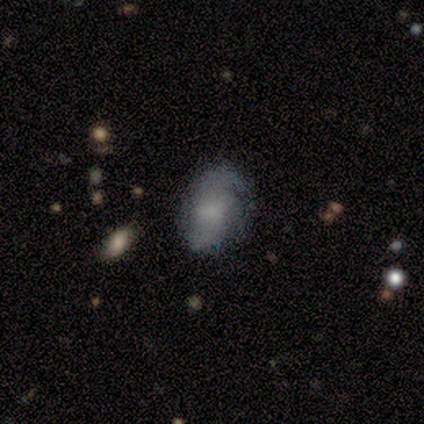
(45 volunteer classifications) Smooth or featured? 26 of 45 (58%) said featured or disk. Edge-on disk? 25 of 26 (96%) said no. Bar? 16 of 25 (64%) said no. Spiral arms? 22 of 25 (88%) said yes. Spiral winding? 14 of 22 (64%) said medium. Spiral arm count? 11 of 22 (50%) said 2. Bulge size? 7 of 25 (28%, tied with small) said moderate. Merging? 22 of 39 (56%) said none.